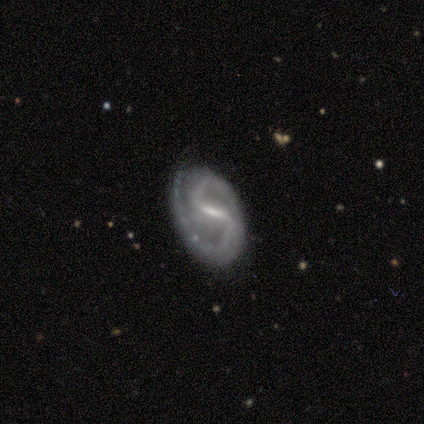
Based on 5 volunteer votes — Smooth or featured? 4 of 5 (80%) said featured or disk. Edge-on disk? 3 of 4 (75%) said no. Bar? 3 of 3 (100%) said strong. Spiral arms? 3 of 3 (100%) said yes. Spiral winding? 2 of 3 (67%) said tight. Spiral arm count? 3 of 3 (100%) said 2. Bulge size? 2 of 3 (67%) said moderate. Merging? 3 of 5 (60%) said none.